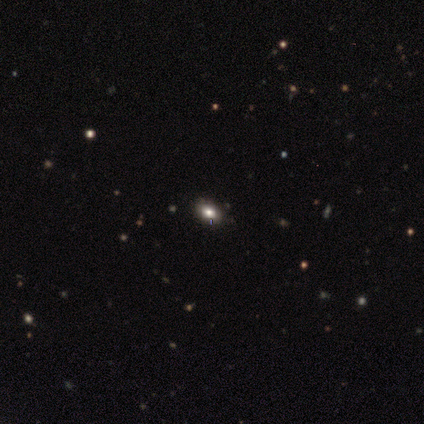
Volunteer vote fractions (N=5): featured or disk 60%, star or artifact 40%, smooth 0%. Down the decision tree: edge-on disk — no (100%); bar — no (100%); spiral arms — no (100%); bulge size — large (100%); merging — none (100%).